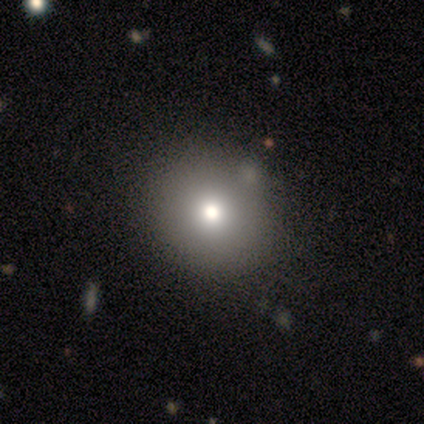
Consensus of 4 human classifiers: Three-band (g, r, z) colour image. It shows a smooth galaxy with no disk features (50%, tied with featured or disk) that is round (100%). Merging: none (100%).